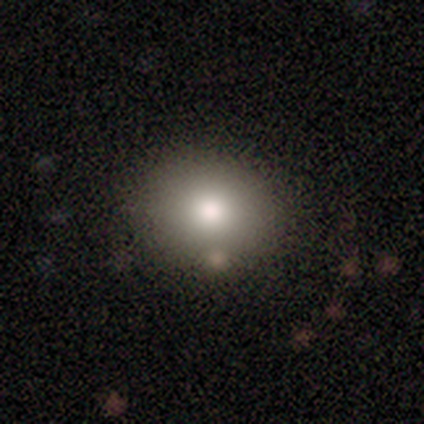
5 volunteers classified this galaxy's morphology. Smooth or featured?
  - smooth: 80% *
  - featured or disk: 20%
  - star or artifact: 0%
How rounded?
  - round: 100% *
  - in between: 0%
  - cigar-shaped: 0%
Merging?
  - none: 80% *
  - merger: 20%
  - minor disturbance: 0%
  - major disturbance: 0%